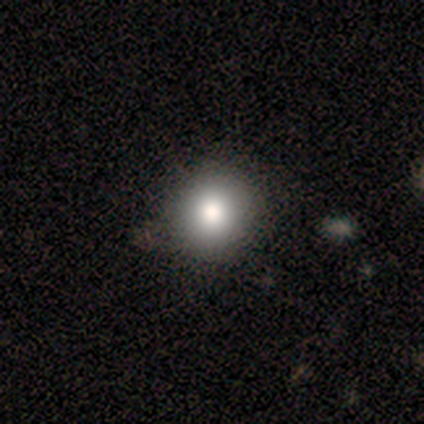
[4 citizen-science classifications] This appears to be a smooth galaxy with no disk features (100%) that is round (100%). Merging: none (100%).